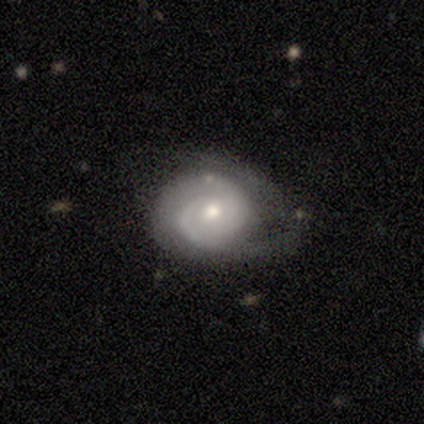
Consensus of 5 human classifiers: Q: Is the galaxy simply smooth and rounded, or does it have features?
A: featured or disk — 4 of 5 (80%).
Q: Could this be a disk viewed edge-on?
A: no — 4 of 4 (100%).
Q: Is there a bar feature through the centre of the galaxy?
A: no — 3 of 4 (75%).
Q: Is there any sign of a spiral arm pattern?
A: yes — 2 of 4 (50%, tied with no).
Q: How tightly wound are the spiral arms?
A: tight — 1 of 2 (50%, tied with medium).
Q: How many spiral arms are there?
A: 2 — 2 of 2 (100%).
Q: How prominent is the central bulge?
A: moderate — 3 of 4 (75%).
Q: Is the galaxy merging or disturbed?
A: none — 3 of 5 (60%).